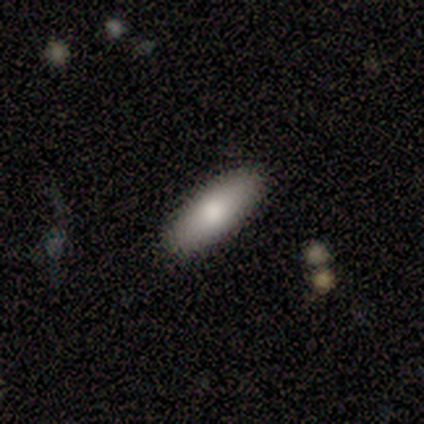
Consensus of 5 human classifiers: Volunteers were most divided on "smooth or featured": smooth: 80%, featured or disk: 20%, star or artifact: 0%. More confident: how rounded — in between (100%); merging — none (100%).